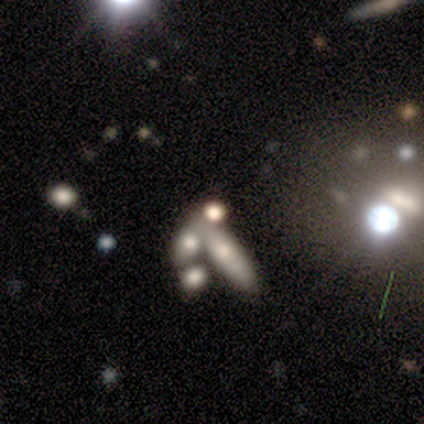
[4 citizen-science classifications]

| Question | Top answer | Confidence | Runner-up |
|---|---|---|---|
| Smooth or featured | smooth | 75% | star or artifact (25%) |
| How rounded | cigar-shaped | 67% | in between (33%) |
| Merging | merger | 100% | — |